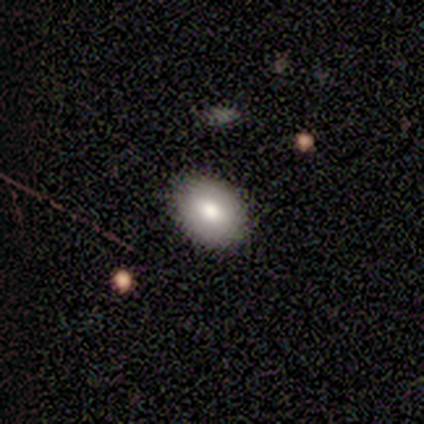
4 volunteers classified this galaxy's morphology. type=smooth (75%); roundness=round (100%); merging=none (75%).